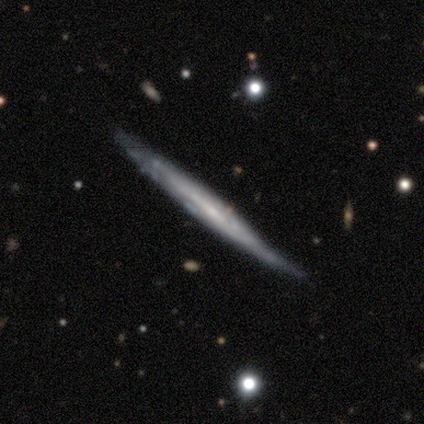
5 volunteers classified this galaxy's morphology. Smooth or featured? featured or disk (80%)
Edge-on disk? yes (100%)
Edge-on bulge? none (100%)
Merging? none (50%)